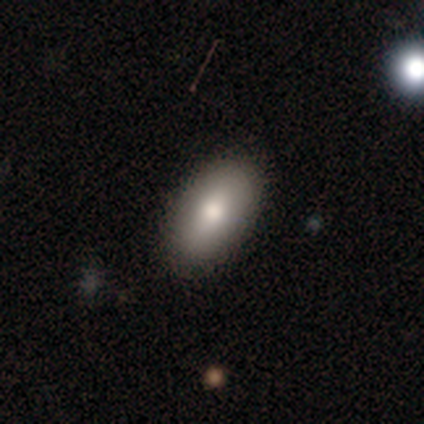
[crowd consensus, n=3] star or artifact 67%, smooth 33%, featured or disk 0%.